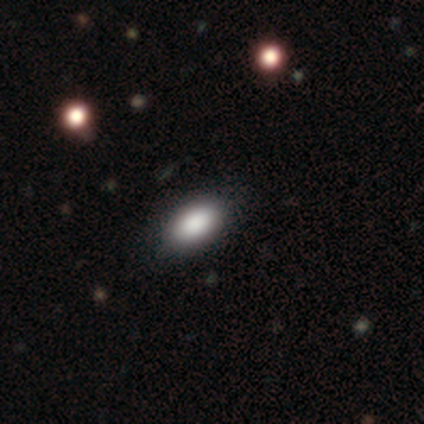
smooth_or_featured: smooth (p=1.00)
how_rounded: in between (p=1.00)
merging: none (p=0.80) [alt: major disturbance p=0.20]